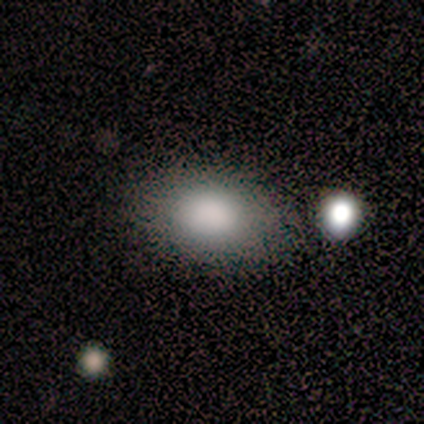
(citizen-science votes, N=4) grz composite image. It shows a smooth galaxy with no disk features (100%) that is in between round and cigar-shaped (100%). Merging: none (100%).